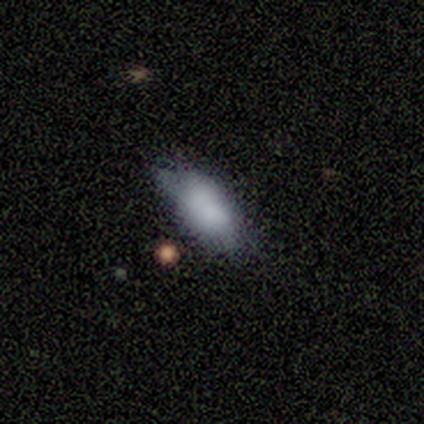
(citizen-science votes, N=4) smooth_or_featured: smooth (p=1.00)
how_rounded: in between (p=1.00)
merging: none (p=0.75) [alt: minor disturbance p=0.25]